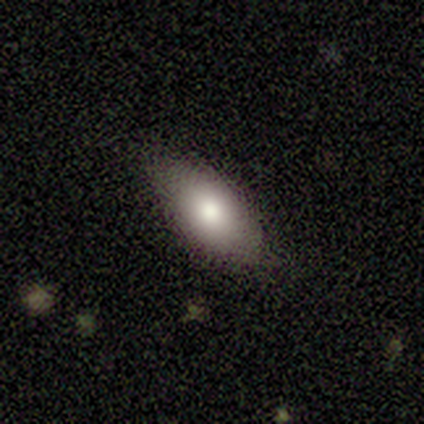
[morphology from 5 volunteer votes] This is clearly a smooth galaxy (80%). How rounded: clearly in between (100%). Merging: clearly none (100%).